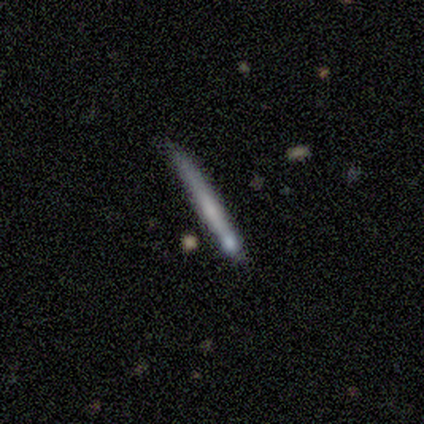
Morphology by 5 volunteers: Volunteers were most divided on "merging": none: 50%, minor disturbance: 25%, merger: 25%, major disturbance: 0%. More confident: edge-on bulge — none (100%); edge-on disk — yes (67%); smooth or featured — featured or disk (60%).